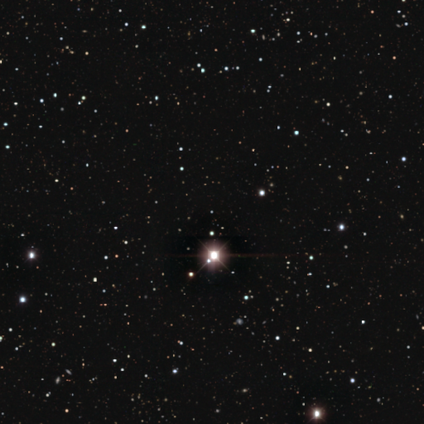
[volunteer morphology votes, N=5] Consensus on every question: smooth or featured — star or artifact (100%).